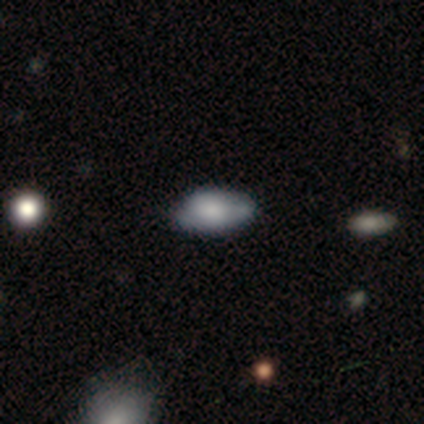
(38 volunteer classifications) smooth-or-featured: smooth: 61% | featured or disk: 32% | star or artifact: 8%
  how-rounded: in between: 87% | round: 9% | cigar-shaped: 4%
  merging: none: 60% | minor disturbance: 23% | major disturbance: 9% | merger: 9%